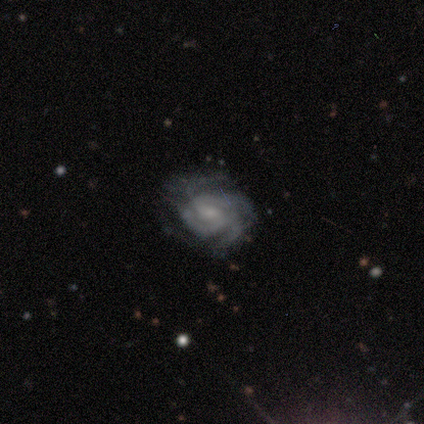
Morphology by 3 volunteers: Volunteers were most divided on "spiral arm count" (3-way tie): 3: 33%, 4: 33%, can't tell: 33%, 1: 0%, 2: 0%, more than 4: 0%; "merging" (3-way tie): none: 33%, minor disturbance: 33%, major disturbance: 33%, merger: 0%. More confident: smooth or featured — featured or disk (100%); edge-on disk — no (100%); spiral arms — yes (100%); bar — no (67%); spiral winding — medium (67%); bulge size — moderate (67%).